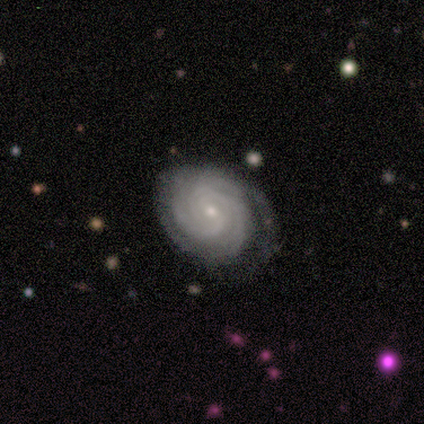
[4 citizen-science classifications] A featured or disk galaxy (100%) with a weak bar (75%), 3 (50%) tight (75%) spiral arms (100%) and a small central bulge (75%).

Vote fractions:
- Smooth or featured? featured or disk: 100% / smooth: 0% / star or artifact: 0%
- Edge-on disk? no: 100% / yes: 0%
- Bar? weak: 75% / no: 25% / strong: 0%
- Spiral arms? yes: 100% / no: 0%
- Spiral winding? tight: 75% / loose: 25% / medium: 0%
- Spiral arm count? 3: 50% / 2: 25% / can't tell: 25% / 1: 0% / 4: 0% / more than 4: 0%
- Bulge size? small: 75% / moderate: 25% / dominant: 0% / large: 0% / none: 0%
- Merging? none: 50% / minor disturbance: 25% / major disturbance: 25% / merger: 0%